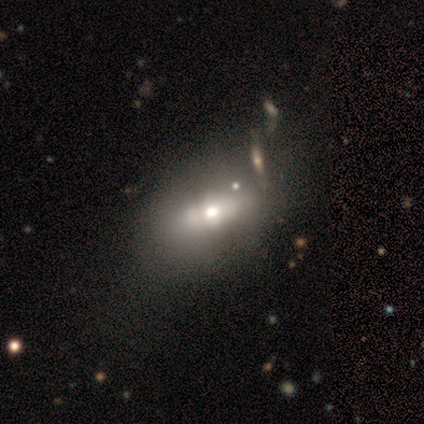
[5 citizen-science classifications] Smooth or featured?
  - featured or disk: 60% *
  - smooth: 40%
  - star or artifact: 0%
Edge-on disk?
  - no: 67% *
  - yes: 33%
Bar?
  - no: 100% *
  - strong: 0%
  - weak: 0%
Spiral arms?
  - no: 100% *
  - yes: 0%
Bulge size?
  - large: 50% * (tied)
  - moderate: 50% * (tied)
  - dominant: 0%
  - small: 0%
  - none: 0%
Merging?
  - none: 40% * (tied)
  - major disturbance: 40% * (tied)
  - minor disturbance: 20%
  - merger: 0%